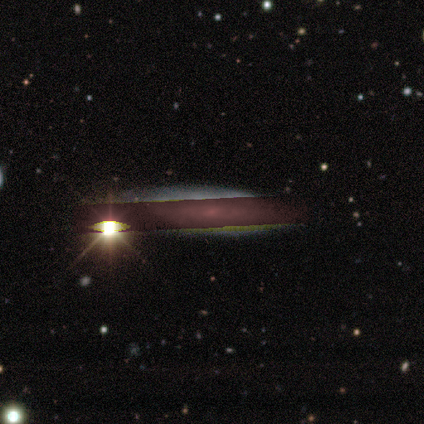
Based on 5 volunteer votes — A star or artifact, not a galaxy (80%).